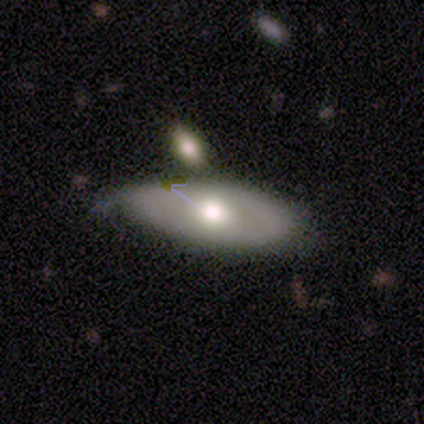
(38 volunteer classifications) A smooth galaxy with no disk features (58%) that is in between round and cigar-shaped (82%).

Vote fractions:
- Smooth or featured? smooth: 58% / featured or disk: 37% / star or artifact: 5%
- How rounded? in between: 82% / cigar-shaped: 14% / round: 5%
- Merging? none: 50% / minor disturbance: 47% / merger: 3% / major disturbance: 0%